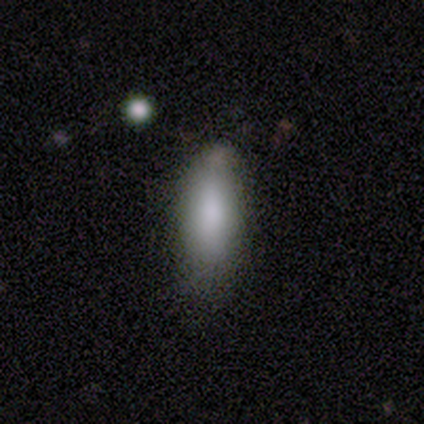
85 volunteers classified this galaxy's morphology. Volunteers were most divided on "how rounded": in between: 65%, cigar-shaped: 35%, round: 0%. More confident: smooth or featured — smooth (87%); merging — none (67%).